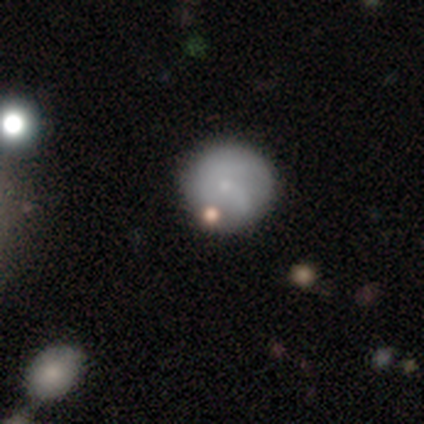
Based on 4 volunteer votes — smooth 50% (tied), featured or disk 50% (tied), star or artifact 0%. Down the decision tree: how rounded — round (100%); merging — none (50%).